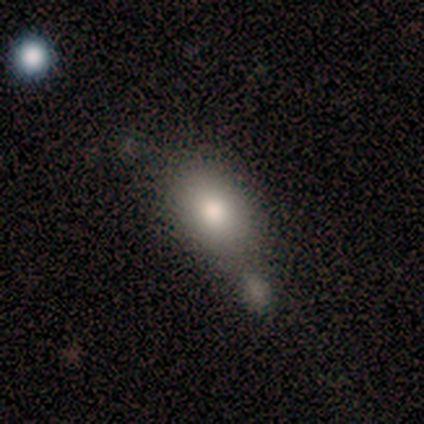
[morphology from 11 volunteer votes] A smooth galaxy with no disk features (73%) that is in between round and cigar-shaped (75%).

Vote fractions:
- Smooth or featured? smooth: 73% / featured or disk: 27% / star or artifact: 0%
- How rounded? in between: 75% / round: 25% / cigar-shaped: 0%
- Merging? none: 45% (tied) / minor disturbance: 45% (tied) / major disturbance: 9% / merger: 0%